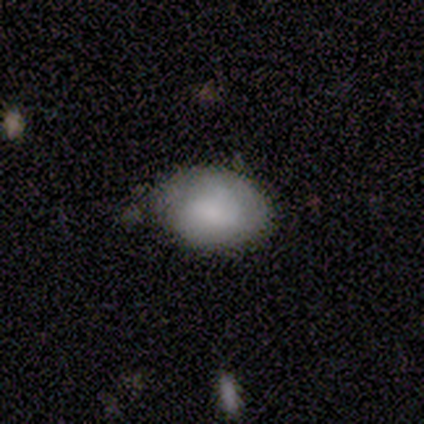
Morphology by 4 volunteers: Q: Smooth or featured?
A: smooth (100%)
Q: How rounded?
A: in between (75%); runner-up: round (25%)
Q: Merging?
A: none (75%); runner-up: minor disturbance (25%)